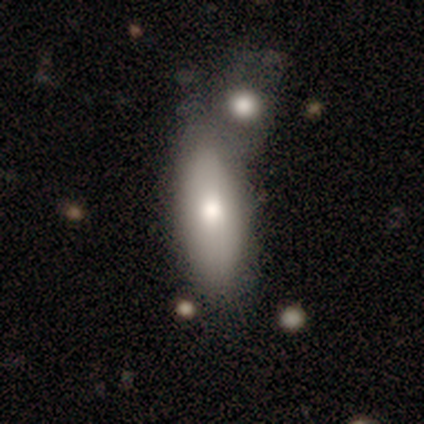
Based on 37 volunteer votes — A smooth galaxy with no disk features (76%) that is in between round and cigar-shaped (82%).

Vote fractions:
- Smooth or featured? smooth: 76% / featured or disk: 19% / star or artifact: 5%
- How rounded? in between: 82% / cigar-shaped: 14% / round: 4%
- Merging? merger: 43% / none: 37% / minor disturbance: 11% / major disturbance: 9%